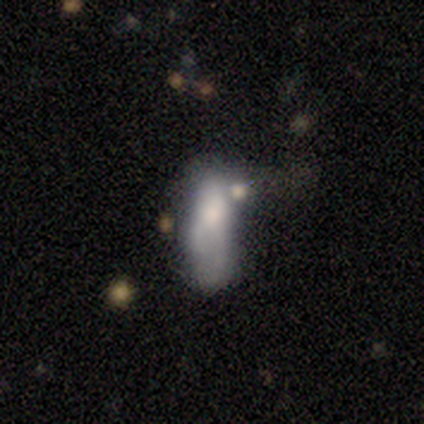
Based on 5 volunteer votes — smooth-or-featured: featured or disk: 60% | smooth: 20% | star or artifact: 20%
  disk-edge-on: no: 100% | yes: 0%
    bar: no: 100% | strong: 0% | weak: 0%
    has-spiral-arms: no: 100% | yes: 0%
    bulge-size: small: 67% | large: 33% | dominant: 0% | moderate: 0% | none: 0%
  merging: major disturbance: 75% | none: 25% | minor disturbance: 0% | merger: 0%